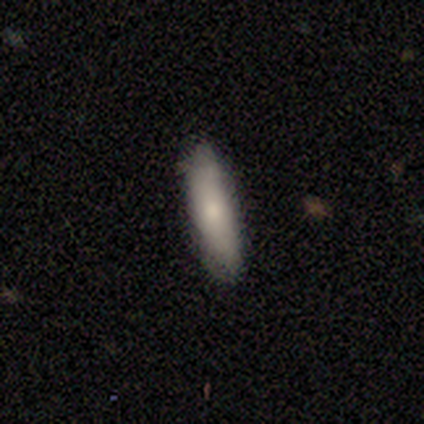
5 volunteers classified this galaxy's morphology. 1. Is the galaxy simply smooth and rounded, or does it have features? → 40% smooth (tied), 40% star or artifact (tied), 20% featured or disk.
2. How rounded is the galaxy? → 50% in between (tied), 50% cigar-shaped (tied), 0% round.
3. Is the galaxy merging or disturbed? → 100% none, 0% minor disturbance, 0% major disturbance, 0% merger.